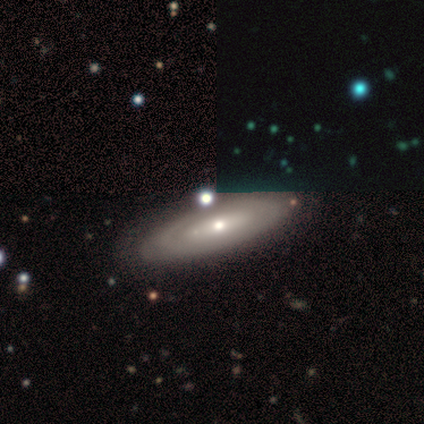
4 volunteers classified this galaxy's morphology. Smooth or featured: featured or disk — 100%
Edge-on disk: yes — 50% (tied with no — 50%)
Edge-on bulge: rounded — 100%
Merging: none — 75% (minor disturbance — 25%)